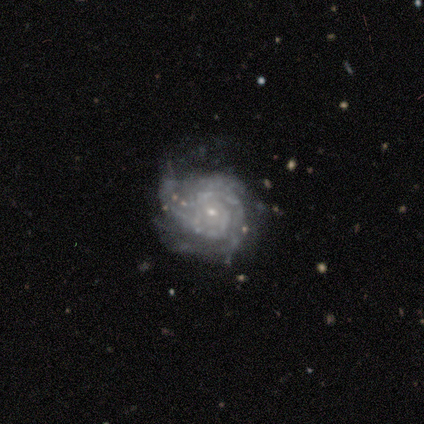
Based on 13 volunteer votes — This appears to be a featured or disk galaxy (92%) with no bar (82%), tight (90%) spiral arms (91%) and a small central bulge (73%). Merging: major disturbance (42%).